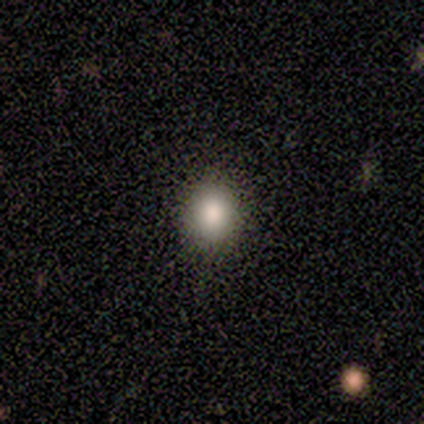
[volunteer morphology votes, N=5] Smooth or featured? 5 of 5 (100%) said smooth. How rounded? 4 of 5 (80%) said round. Merging? 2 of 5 (40%, tied with minor disturbance) said none.